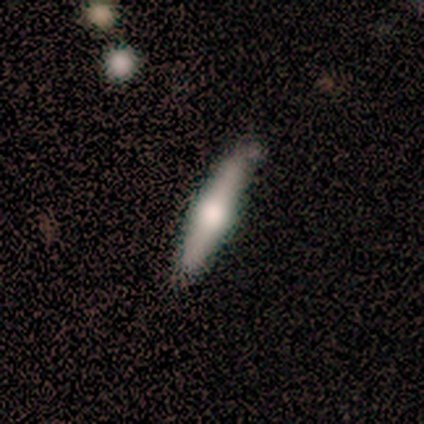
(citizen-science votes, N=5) featured or disk 60%, smooth 40%, star or artifact 0%. Down the decision tree: edge-on disk — yes (100%); edge-on bulge — boxy (33%, tied with none and rounded); merging — none (60%).